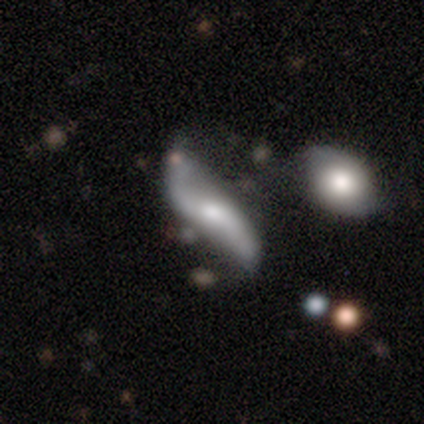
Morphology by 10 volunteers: smooth-or-featured: featured or disk: 100% | smooth: 0% | star or artifact: 0%
  disk-edge-on: no: 100% | yes: 0%
    bar: no: 50% | strong: 30% | weak: 20%
    has-spiral-arms: yes: 90% | no: 10%
      spiral-winding: loose: 100% | tight: 0% | medium: 0%
      spiral-arm-count: 2: 100% | 1: 0% | 3: 0% | 4: 0% | more than 4: 0% | can't tell: 0%
    bulge-size: small: 70% | moderate: 30% | dominant: 0% | large: 0% | none: 0%
  merging: merger: 50% | none: 20% | minor disturbance: 20% | major disturbance: 10%